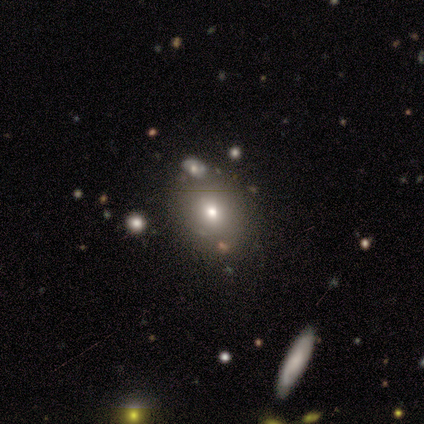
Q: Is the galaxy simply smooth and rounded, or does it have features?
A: smooth — 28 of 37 (76%).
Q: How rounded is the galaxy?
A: round — 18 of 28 (64%).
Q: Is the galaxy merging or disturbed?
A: none — 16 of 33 (48%).